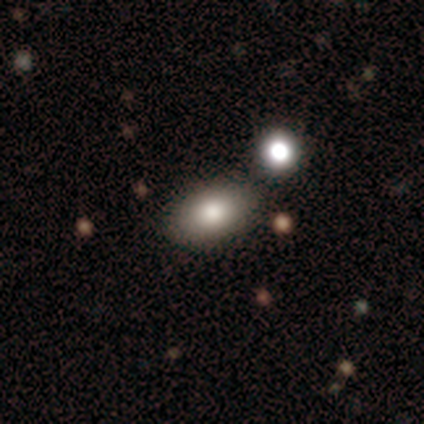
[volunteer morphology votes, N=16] Smooth or featured: smooth — 62% (featured or disk — 38%)
How rounded: in between — 80% (round — 20%)
Merging: none — 88% (minor disturbance — 12%)